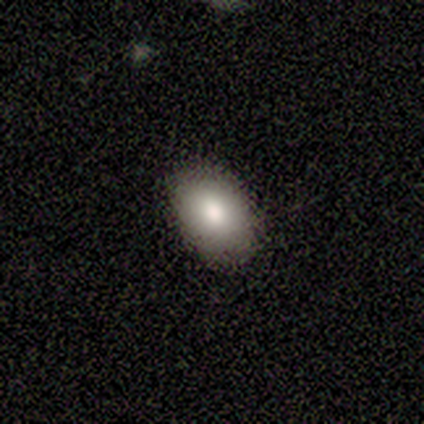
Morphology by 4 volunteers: Smooth or featured?
  - smooth: 75% *
  - featured or disk: 25%
  - star or artifact: 0%
How rounded?
  - in between: 100% *
  - round: 0%
  - cigar-shaped: 0%
Merging?
  - none: 100% *
  - minor disturbance: 0%
  - major disturbance: 0%
  - merger: 0%